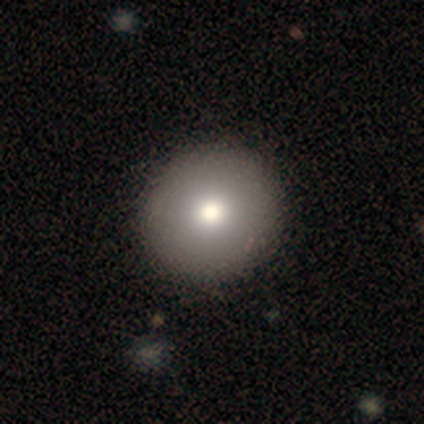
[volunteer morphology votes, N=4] Smooth or featured? smooth (100%)
How rounded? round (100%)
Merging? none (100%)